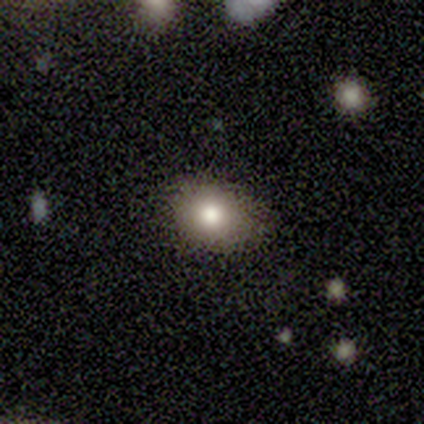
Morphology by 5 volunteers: Smooth or featured?
  - smooth: 100% *
  - featured or disk: 0%
  - star or artifact: 0%
How rounded?
  - in between: 80% *
  - round: 20%
  - cigar-shaped: 0%
Merging?
  - none: 60% *
  - minor disturbance: 40%
  - major disturbance: 0%
  - merger: 0%